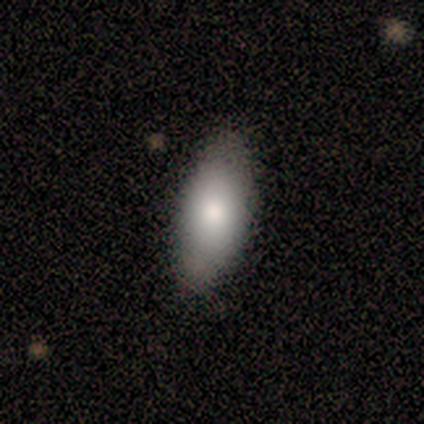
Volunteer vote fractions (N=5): A smooth galaxy with no disk features (100%) that is in between round and cigar-shaped (100%). Merging: none (60%).